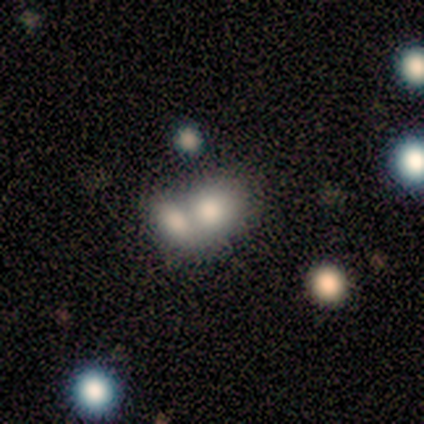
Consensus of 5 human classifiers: This is clearly a smooth galaxy (80%). How rounded: likely in between (75%). Merging: likely merger (60%).